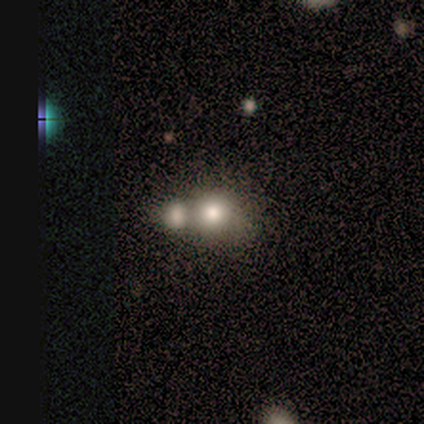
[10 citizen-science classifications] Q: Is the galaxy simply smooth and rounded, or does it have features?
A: smooth — 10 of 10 (100%).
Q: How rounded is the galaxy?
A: round — 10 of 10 (100%).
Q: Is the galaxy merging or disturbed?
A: merger — 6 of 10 (60%).